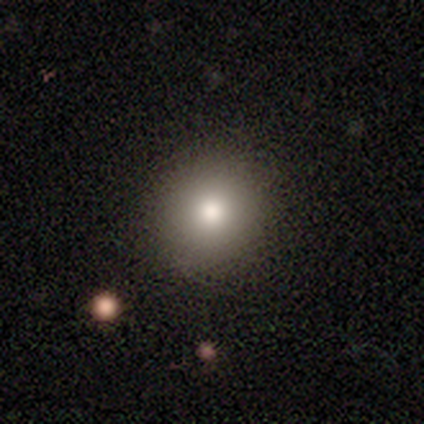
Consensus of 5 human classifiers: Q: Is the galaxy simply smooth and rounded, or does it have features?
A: smooth — 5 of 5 (100%).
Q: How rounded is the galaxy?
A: round — 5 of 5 (100%).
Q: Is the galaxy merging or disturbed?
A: none — 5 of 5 (100%).